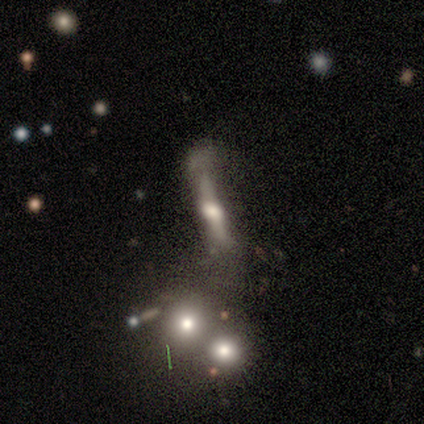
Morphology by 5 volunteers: This appears to be a featured or disk galaxy (60%) viewed edge-on (100%) with a rounded central bulge (100%). Merging: minor disturbance (100%).